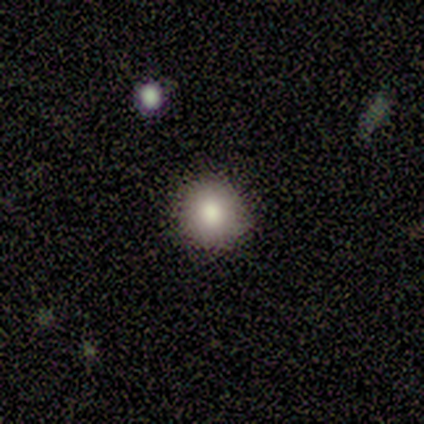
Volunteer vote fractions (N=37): smooth 84%, featured or disk 14%, star or artifact 3%. Down the decision tree: how rounded — round (90%); merging — none (81%).